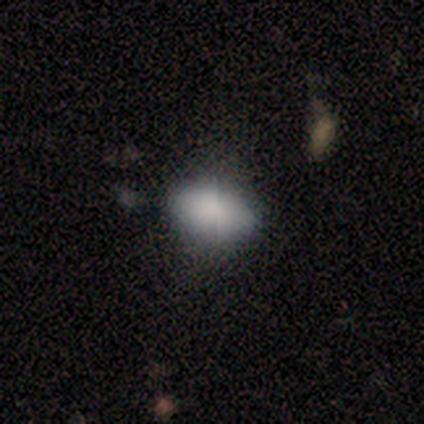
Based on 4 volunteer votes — Smooth or featured? smooth (100%)
How rounded? in between (100%)
Merging? minor disturbance (50%)